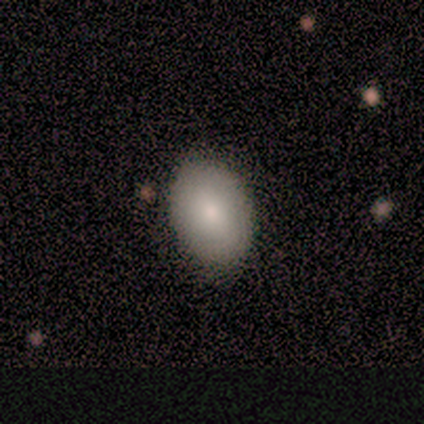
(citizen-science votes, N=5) Overall: smooth (100%). How rounded: in between (80%). Merging: none (100%).